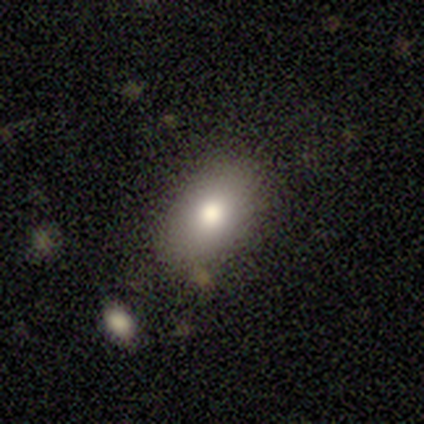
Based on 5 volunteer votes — Smooth or featured? smooth (60%)
How rounded? in between (100%)
Merging? none (100%)